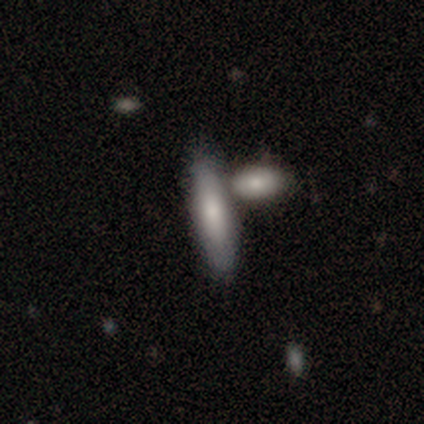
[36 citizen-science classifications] A smooth galaxy with no disk features (78%) that is cigar-shaped (61%). Merging: merger (70%).